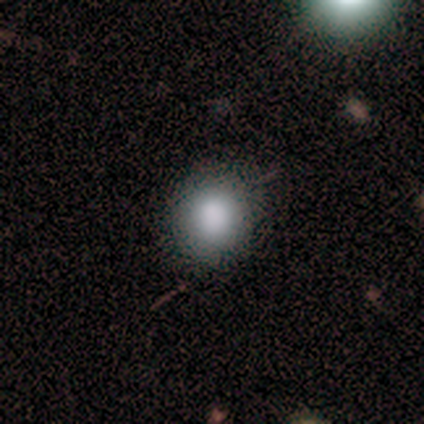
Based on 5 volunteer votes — A smooth galaxy with no disk features (100%) that is round (60%). Merging: none (100%).